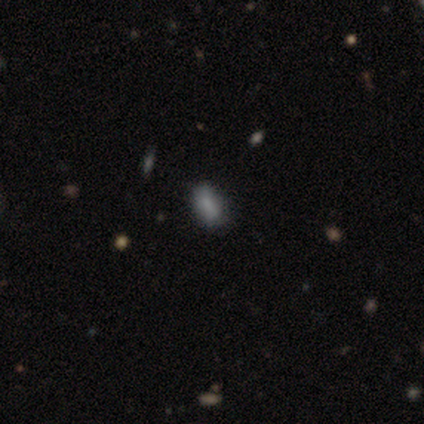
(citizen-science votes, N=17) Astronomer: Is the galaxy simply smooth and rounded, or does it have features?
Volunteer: smooth — 94%.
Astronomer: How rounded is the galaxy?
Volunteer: in between — 69%.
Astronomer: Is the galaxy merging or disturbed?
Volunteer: none — 88%.